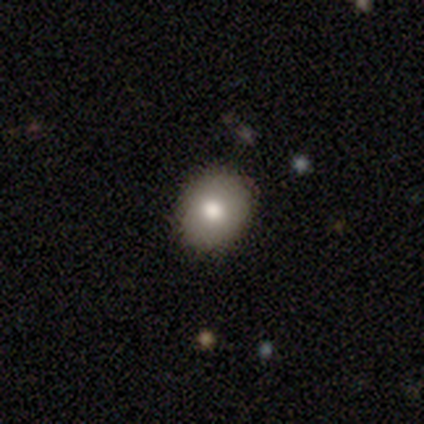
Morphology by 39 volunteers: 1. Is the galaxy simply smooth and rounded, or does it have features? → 67% smooth, 23% featured or disk, 10% star or artifact.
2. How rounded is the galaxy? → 65% round, 35% in between, 0% cigar-shaped.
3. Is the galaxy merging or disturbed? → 89% none, 11% minor disturbance, 0% major disturbance, 0% merger.